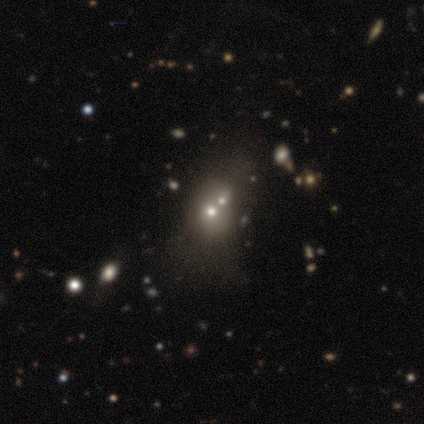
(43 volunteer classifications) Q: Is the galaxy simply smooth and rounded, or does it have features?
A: smooth — 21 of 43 (49%).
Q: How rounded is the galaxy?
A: round — 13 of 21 (62%).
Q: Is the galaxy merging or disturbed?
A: merger — 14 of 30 (47%).